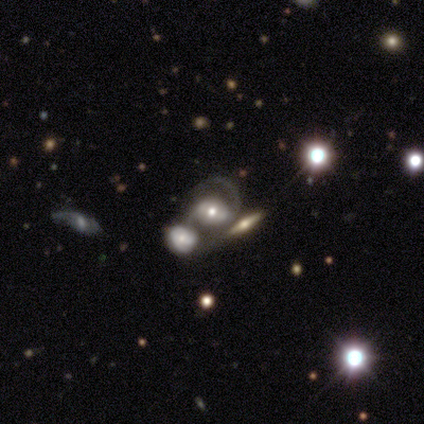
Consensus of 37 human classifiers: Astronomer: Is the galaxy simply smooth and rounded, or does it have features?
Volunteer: featured or disk — 86%.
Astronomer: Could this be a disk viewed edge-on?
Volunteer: no — 94%.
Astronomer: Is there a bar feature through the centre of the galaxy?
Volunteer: no — 43% (runner-up: weak, 40%).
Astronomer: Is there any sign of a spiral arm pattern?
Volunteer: yes — 93%.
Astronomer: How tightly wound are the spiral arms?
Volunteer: medium — 57%.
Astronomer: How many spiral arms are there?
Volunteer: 2 — 71%.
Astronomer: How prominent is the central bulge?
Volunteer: moderate — 70%.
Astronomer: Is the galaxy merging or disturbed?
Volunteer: merger — 46% (runner-up: none, 30%).